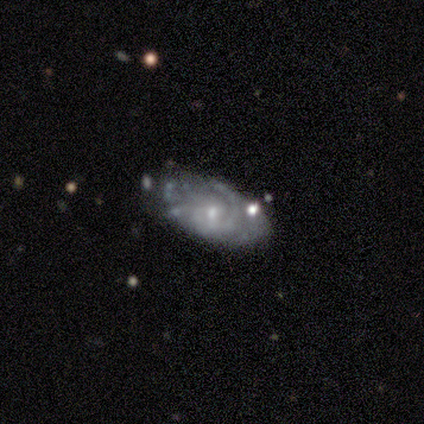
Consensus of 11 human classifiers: Smooth or featured: featured or disk — 55% (smooth — 45%)
Edge-on disk: no — 83% (yes — 17%)
Bar: no — 60% (weak — 40%)
Spiral arms: yes — 60% (no — 40%)
Spiral winding: tight — 100%
Spiral arm count: can't tell — 67% (3 — 33%)
Bulge size: small — 100%
Merging: none — 45% (minor disturbance — 36%)